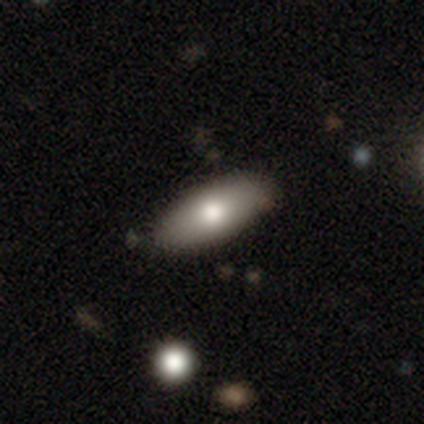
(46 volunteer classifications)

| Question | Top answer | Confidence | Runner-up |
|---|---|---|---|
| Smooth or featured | smooth | 78% | featured or disk (15%) |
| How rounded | in between | 81% | cigar-shaped (14%) |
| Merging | none | 81% | minor disturbance (16%) |